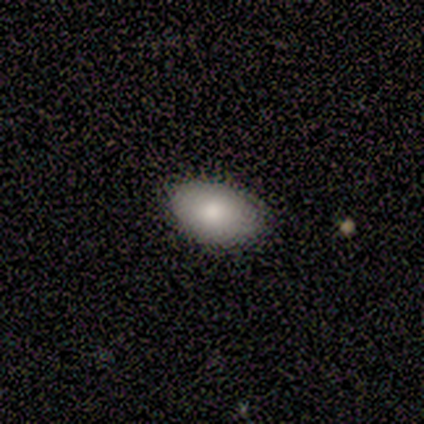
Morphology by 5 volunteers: smooth_or_featured: smooth (p=1.00)
how_rounded: in between (p=1.00)
merging: none (p=1.00)